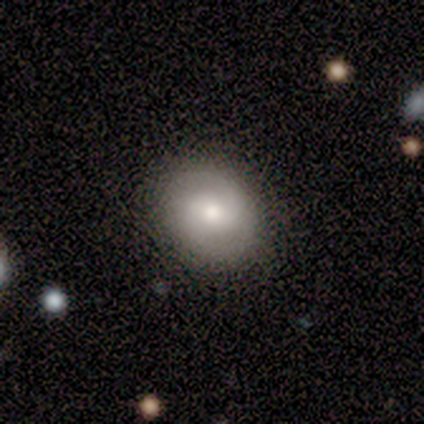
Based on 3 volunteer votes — Volunteers were most divided on "smooth or featured": smooth: 67%, featured or disk: 33%, star or artifact: 0%. More confident: how rounded — round (100%); merging — minor disturbance (67%).